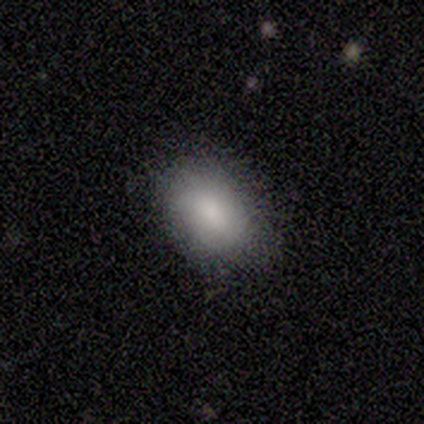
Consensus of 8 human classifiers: A smooth galaxy with no disk features (88%) that is in between round and cigar-shaped (71%). Merging: none (86%).